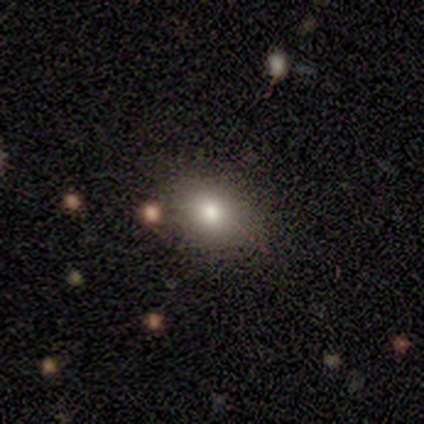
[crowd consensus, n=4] This is possibly a smooth galaxy (50%). How rounded: possibly round (50%, tied with in between). Merging: clearly none (100%).